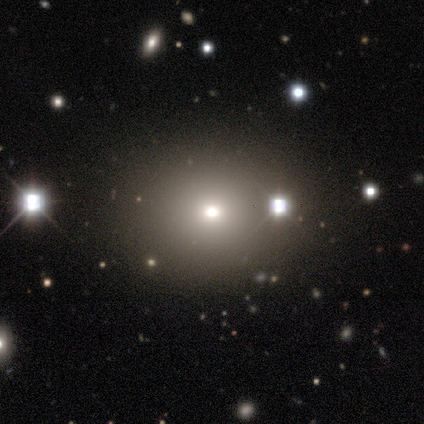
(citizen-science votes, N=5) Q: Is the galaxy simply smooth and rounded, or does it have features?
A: star or artifact — 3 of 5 (60%).